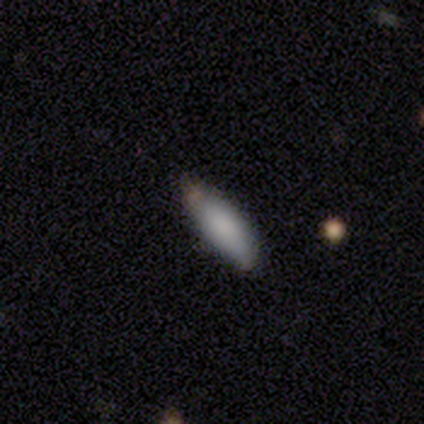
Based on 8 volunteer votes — Volunteers were most divided on "how rounded": in between: 86%, cigar-shaped: 14%, round: 0%. More confident: smooth or featured — smooth (88%); merging — none (88%).